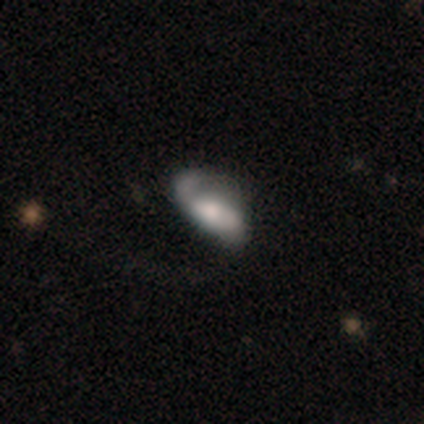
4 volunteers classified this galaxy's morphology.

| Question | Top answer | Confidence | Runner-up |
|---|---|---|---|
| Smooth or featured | smooth | 50% | tied: featured or disk (50%) |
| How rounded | in between | 100% | — |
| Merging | minor disturbance | 75% | major disturbance (25%) |